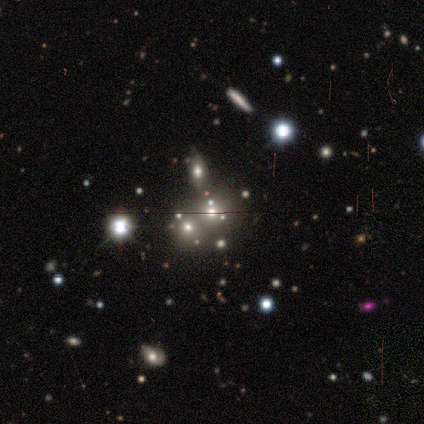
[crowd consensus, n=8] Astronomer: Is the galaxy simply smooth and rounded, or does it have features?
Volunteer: star or artifact — 50% (runner-up: smooth, 38%).